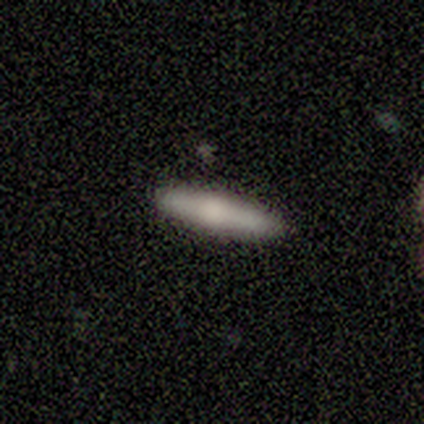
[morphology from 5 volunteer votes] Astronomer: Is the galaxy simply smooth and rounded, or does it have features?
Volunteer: featured or disk — 60% (runner-up: smooth, 40%).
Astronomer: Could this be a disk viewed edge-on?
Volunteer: yes — 100%.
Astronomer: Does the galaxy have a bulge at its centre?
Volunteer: rounded — 100%.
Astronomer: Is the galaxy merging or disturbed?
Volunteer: none — 80%.